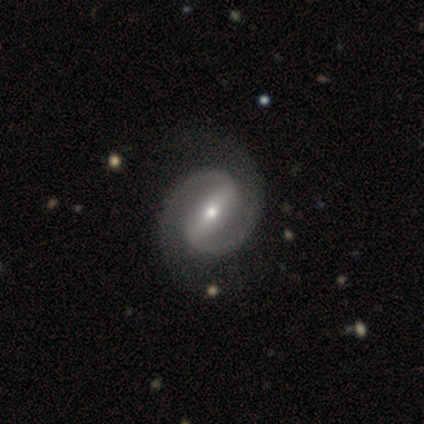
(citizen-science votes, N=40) smooth-or-featured: featured or disk: 95% | smooth: 2% | star or artifact: 2%
  disk-edge-on: no: 100% | yes: 0%
    bar: strong: 66% | weak: 29% | no: 5%
    has-spiral-arms: yes: 100% | no: 0%
      spiral-winding: medium: 63% | tight: 18% | loose: 18%
      spiral-arm-count: 2: 97% | 1: 3% | 3: 0% | 4: 0% | more than 4: 0% | can't tell: 0%
    bulge-size: small: 61% | moderate: 32% | large: 5% | dominant: 3% | none: 0%
  merging: none: 67% | minor disturbance: 5% | major disturbance: 5% | merger: 0%